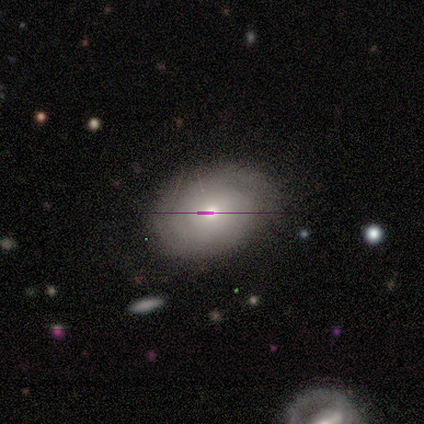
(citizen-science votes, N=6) Volunteers were most divided on "spiral winding" (2-way tie): tight: 50%, medium: 50%, loose: 0%. More confident: bar — no (100%); spiral arms — yes (100%); spiral arm count — can't tell (100%); bulge size — moderate (100%); merging — none (80%); edge-on disk — no (67%); smooth or featured — featured or disk (50%).